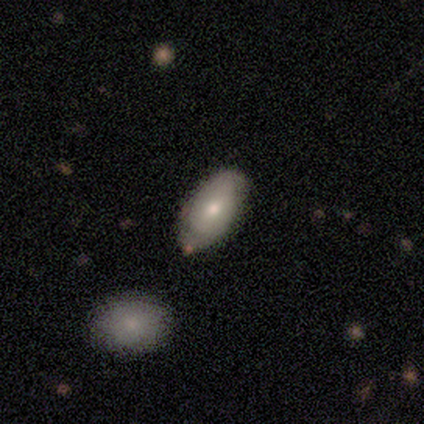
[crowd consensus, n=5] Overall: smooth (40%, tied with featured or disk). How rounded: in between (100%). Merging: none (75%).